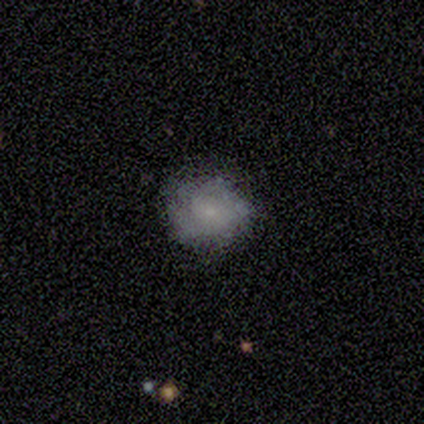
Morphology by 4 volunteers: Q: Smooth or featured?
A: featured or disk (75%); runner-up: star or artifact (25%)
Q: Edge-on disk?
A: no (100%)
Q: Bar?
A: no (67%); runner-up: weak (33%)
Q: Spiral arms?
A: no (67%); runner-up: yes (33%)
Q: Bulge size?
A: small (67%); runner-up: none (33%)
Q: Merging?
A: none (33%); tied with: minor disturbance (33%); major disturbance (33%)